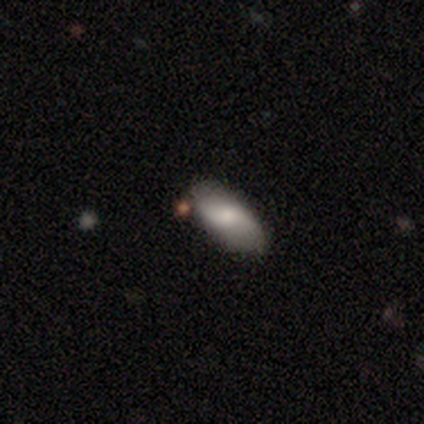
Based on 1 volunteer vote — Smooth or featured: featured or disk — 100%
Edge-on disk: no — 100%
Bar: strong — 100%
Spiral arms: yes — 100%
Spiral winding: loose — 100%
Spiral arm count: 2 — 100%
Bulge size: moderate — 100%
Merging: none — 100%